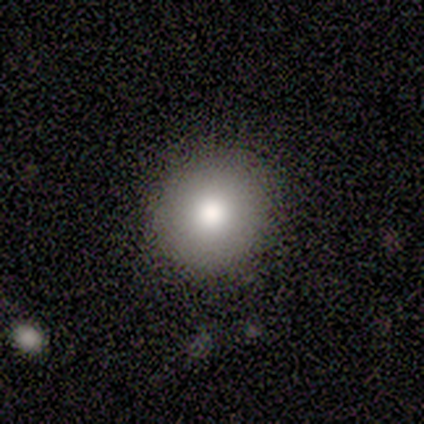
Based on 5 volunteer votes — A smooth galaxy with no disk features (60%) that is round (100%).

Vote fractions:
- Smooth or featured? smooth: 60% / featured or disk: 20% / star or artifact: 20%
- How rounded? round: 100% / in between: 0% / cigar-shaped: 0%
- Merging? none: 75% / merger: 25% / minor disturbance: 0% / major disturbance: 0%